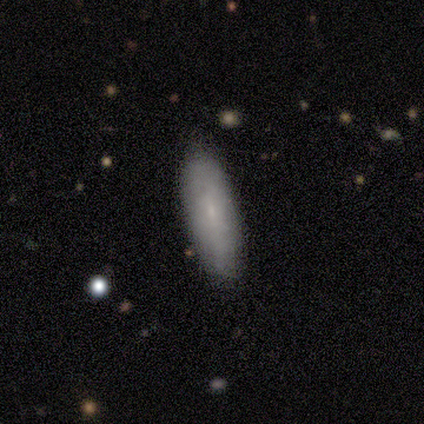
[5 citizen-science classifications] Smooth or featured? smooth (60%)
How rounded? in between (67%)
Merging? none (100%)